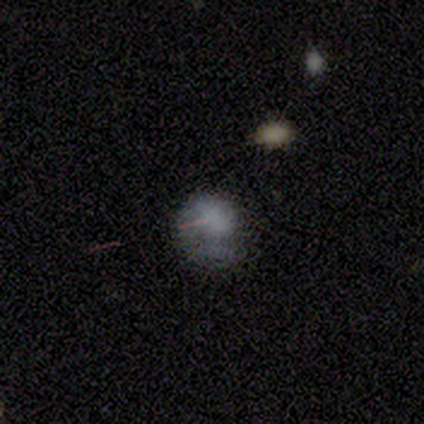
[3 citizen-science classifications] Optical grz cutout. It shows a featured or disk galaxy (67%) viewed edge-on (50%, tied with no) with a boxy central bulge (100%). Merging: minor disturbance (50%, tied with major disturbance).